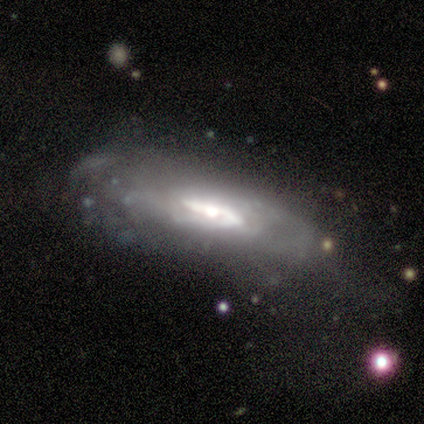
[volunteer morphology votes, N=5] This appears to be a featured or disk galaxy (100%) with a strong bar (50%, tied with weak), medium (67%) spiral arms (75%) and a dominant central bulge (25%, tied with large, moderate and small). Merging: major disturbance (60%).